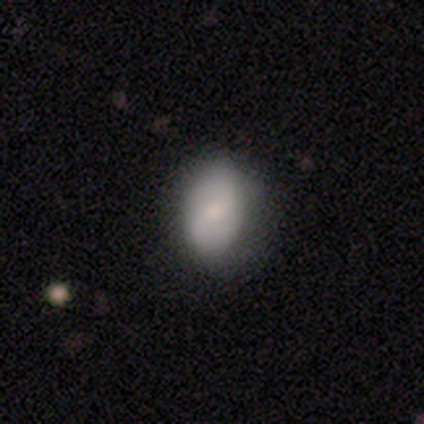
smooth 100%, featured or disk 0%, star or artifact 0%. Down the decision tree: how rounded — in between (60%); merging — minor disturbance (60%).